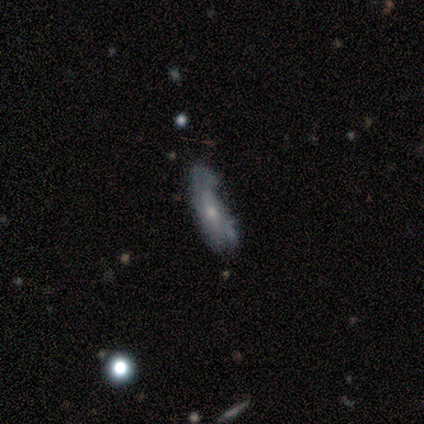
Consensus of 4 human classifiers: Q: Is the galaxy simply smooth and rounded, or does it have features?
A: smooth — 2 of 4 (50%, tied with featured or disk).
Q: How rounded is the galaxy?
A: in between — 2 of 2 (100%).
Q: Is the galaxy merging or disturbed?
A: minor disturbance — 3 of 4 (75%).